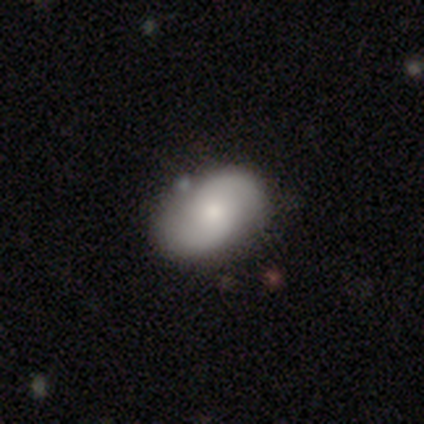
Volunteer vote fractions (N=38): Q: Smooth or featured?
A: smooth (55%); runner-up: featured or disk (37%)
Q: How rounded?
A: in between (86%); runner-up: round (14%)
Q: Merging?
A: none (80%); runner-up: minor disturbance (20%)